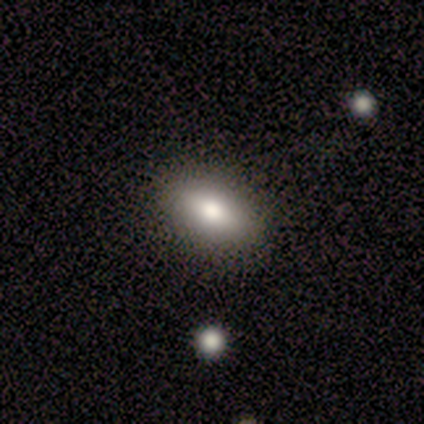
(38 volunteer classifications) Overall: smooth (63%; featured or disk 32%). How rounded: in between (100%). Merging: none (72%).